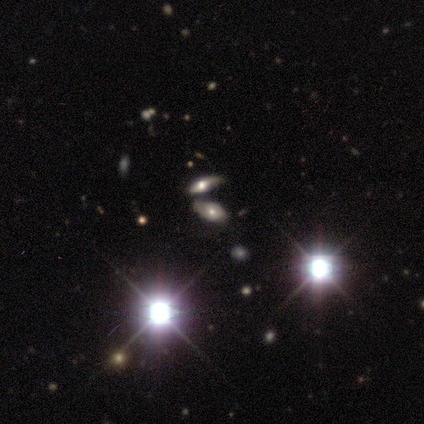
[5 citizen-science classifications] smooth_or_featured: star or artifact (p=0.80) [alt: smooth p=0.20]